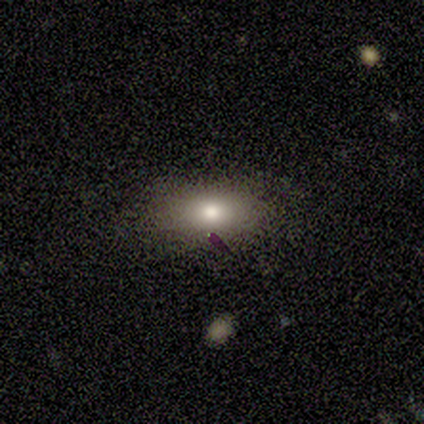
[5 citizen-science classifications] smooth-or-featured: smooth: 100% | featured or disk: 0% | star or artifact: 0%
  how-rounded: in between: 100% | round: 0% | cigar-shaped: 0%
  merging: none: 60% | minor disturbance: 40% | major disturbance: 0% | merger: 0%